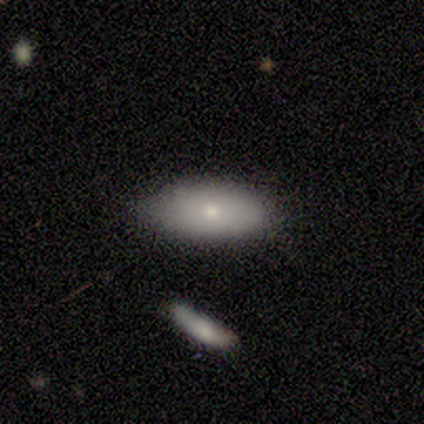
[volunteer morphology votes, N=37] A smooth galaxy with no disk features (81%) that is in between round and cigar-shaped (93%).

Vote fractions:
- Smooth or featured? smooth: 81% / featured or disk: 16% / star or artifact: 3%
- How rounded? in between: 93% / round: 3% / cigar-shaped: 3%
- Merging? none: 78% / minor disturbance: 22% / major disturbance: 0% / merger: 0%